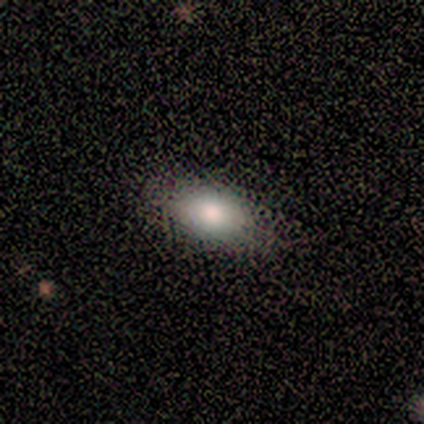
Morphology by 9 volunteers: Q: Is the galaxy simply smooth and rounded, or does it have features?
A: smooth — 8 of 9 (89%).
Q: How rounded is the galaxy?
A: in between — 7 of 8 (88%).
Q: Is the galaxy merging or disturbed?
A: none — 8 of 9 (89%).